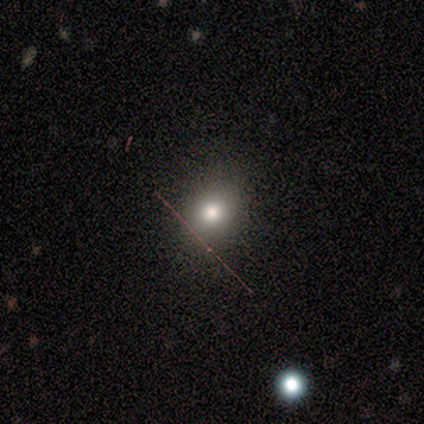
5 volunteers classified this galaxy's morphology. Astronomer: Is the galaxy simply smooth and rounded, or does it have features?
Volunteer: smooth — 80%.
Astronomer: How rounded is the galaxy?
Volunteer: in between — 75%.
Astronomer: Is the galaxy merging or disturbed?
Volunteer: none — 100%.